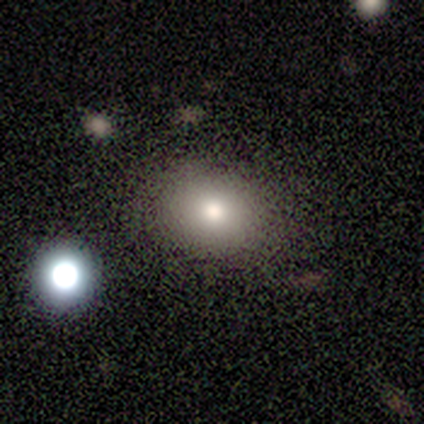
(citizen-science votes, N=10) Volunteers were most divided on "how rounded": round: 78%, in between: 22%, cigar-shaped: 0%. More confident: smooth or featured — smooth (90%); merging — none (80%).